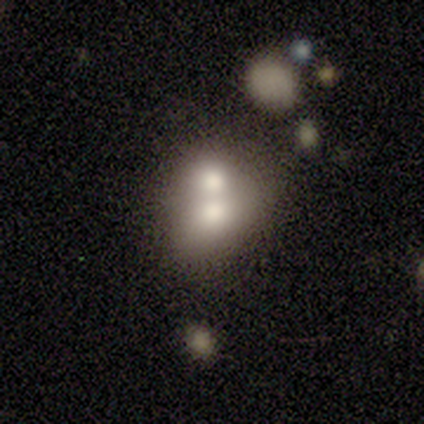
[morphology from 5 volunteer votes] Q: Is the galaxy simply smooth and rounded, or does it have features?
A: smooth — 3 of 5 (60%).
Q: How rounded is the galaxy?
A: round — 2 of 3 (67%).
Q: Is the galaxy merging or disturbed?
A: merger — 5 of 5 (100%).